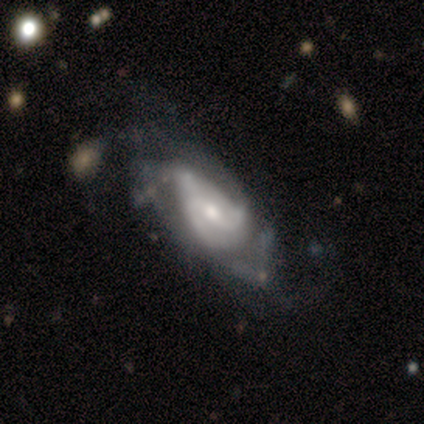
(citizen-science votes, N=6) A featured or disk galaxy (100%) with a weak bar (50%), 2 (80%) medium (60%) spiral arms (83%) and a moderate central bulge (50%).

Vote fractions:
- Smooth or featured? featured or disk: 100% / smooth: 0% / star or artifact: 0%
- Edge-on disk? no: 100% / yes: 0%
- Bar? weak: 50% / no: 33% / strong: 17%
- Spiral arms? yes: 83% / no: 17%
- Spiral winding? medium: 60% / tight: 20% / loose: 20%
- Spiral arm count? 2: 80% / 3: 20% / 1: 0% / 4: 0% / more than 4: 0% / can't tell: 0%
- Bulge size? moderate: 50% / small: 33% / large: 17% / dominant: 0% / none: 0%
- Merging? major disturbance: 50% / none: 33% / merger: 17% / minor disturbance: 0%